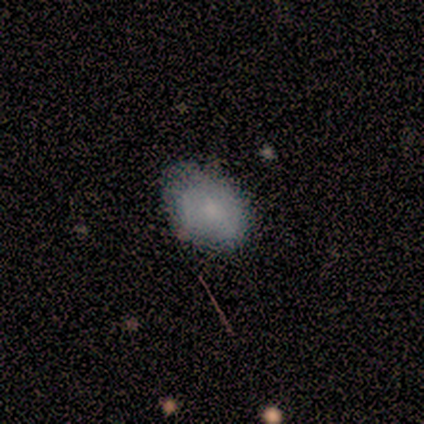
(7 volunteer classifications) Smooth or featured?
  - smooth: 57% *
  - featured or disk: 43%
  - star or artifact: 0%
How rounded?
  - in between: 100% *
  - round: 0%
  - cigar-shaped: 0%
Merging?
  - none: 57% *
  - minor disturbance: 43%
  - major disturbance: 0%
  - merger: 0%